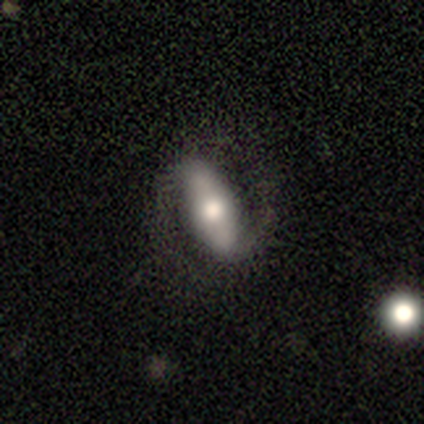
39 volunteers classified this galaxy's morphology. type=featured or disk (67%); edge-on=no (92%); bar=strong (71%); spiral arms=yes (92%); winding=medium (55%); arm count=2 (100%); bulge=moderate (58%); merging=none (76%).